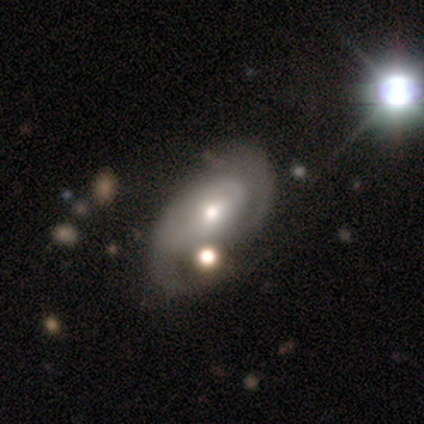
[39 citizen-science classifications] This appears to be a featured or disk galaxy (67%) with no bar (68%), 2 (46%, tied with can't tell) medium (54%) spiral arms (59%) and a moderate central bulge (55%). Merging: none (39%).